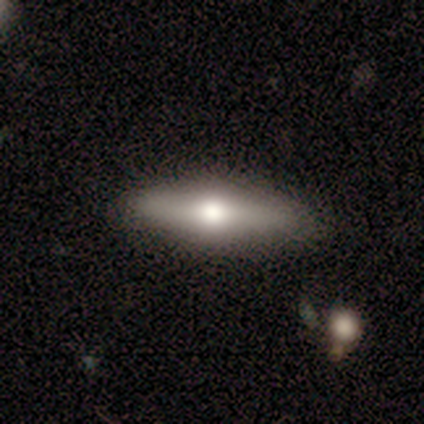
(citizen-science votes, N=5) Q: Smooth or featured?
A: featured or disk (60%); runner-up: smooth (40%)
Q: Edge-on disk?
A: yes (67%); runner-up: no (33%)
Q: Edge-on bulge?
A: rounded (100%)
Q: Merging?
A: none (80%); runner-up: minor disturbance (20%)